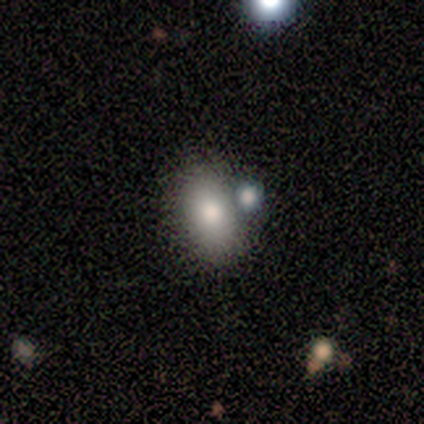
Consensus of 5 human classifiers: Smooth or featured?
  - smooth: 80% *
  - star or artifact: 20%
  - featured or disk: 0%
How rounded?
  - in between: 75% *
  - round: 25%
  - cigar-shaped: 0%
Merging?
  - none: 75% *
  - merger: 25%
  - minor disturbance: 0%
  - major disturbance: 0%